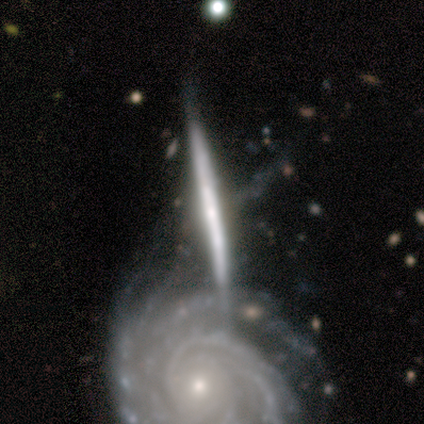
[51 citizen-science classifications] smooth-or-featured: featured or disk: 75% | smooth: 22% | star or artifact: 4%
  disk-edge-on: yes: 82% | no: 18%
    edge-on-bulge: none: 58% | rounded: 42% | boxy: 0%
  merging: none: 39% (tied) | merger: 39% (tied) | major disturbance: 12% | minor disturbance: 10%